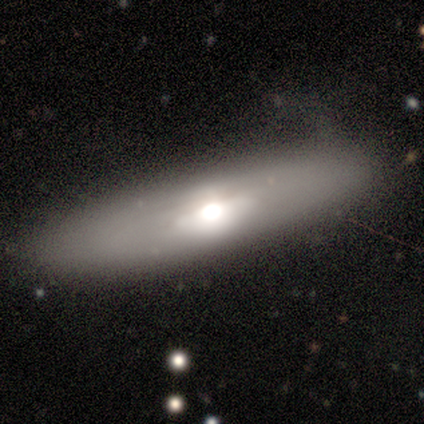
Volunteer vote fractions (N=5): smooth 60%, featured or disk 40%, star or artifact 0%. Down the decision tree: how rounded — cigar-shaped (67%); merging — none (80%).